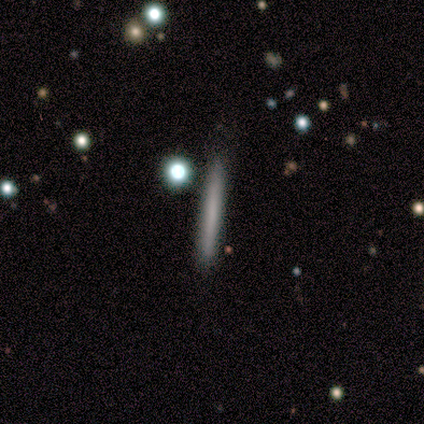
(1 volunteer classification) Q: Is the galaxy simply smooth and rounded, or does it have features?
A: smooth — 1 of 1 (100%).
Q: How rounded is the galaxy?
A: cigar-shaped — 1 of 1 (100%).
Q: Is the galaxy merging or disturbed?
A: none — 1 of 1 (100%).